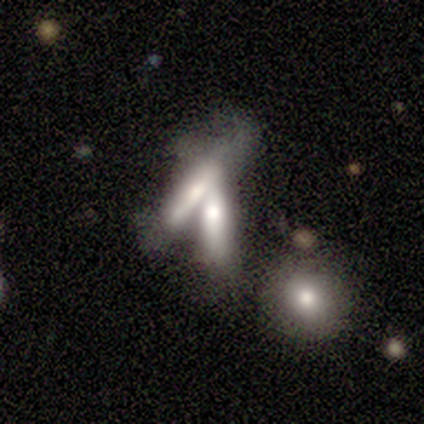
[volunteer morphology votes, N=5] type=featured or disk (60%); edge-on=yes (100%); edge-on bulge=boxy (67%); merging=merger (60%).